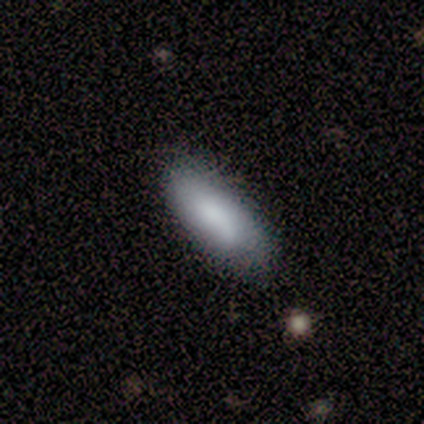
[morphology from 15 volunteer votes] Volunteers were most divided on "merging": none: 67%, minor disturbance: 33%, major disturbance: 0%, merger: 0%. More confident: smooth or featured — smooth (80%); how rounded — in between (75%).